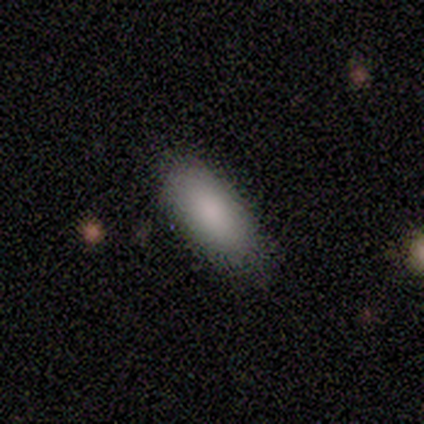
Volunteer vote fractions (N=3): smooth_or_featured: smooth (p=1.00)
how_rounded: in between (p=1.00)
merging: none (p=1.00)